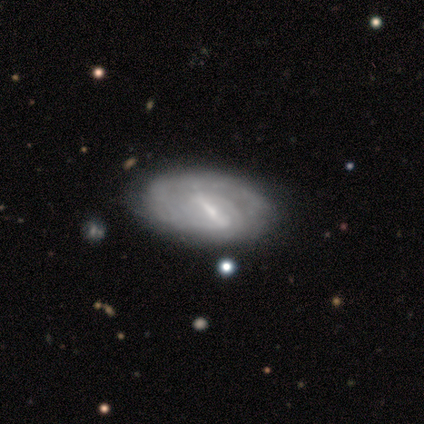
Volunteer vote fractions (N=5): A featured or disk galaxy (100%) with a strong bar (60%), tight (100%) spiral arms (80%) and a small central bulge (40%).

Vote fractions:
- Smooth or featured? featured or disk: 100% / smooth: 0% / star or artifact: 0%
- Edge-on disk? no: 100% / yes: 0%
- Bar? strong: 60% / weak: 40% / no: 0%
- Spiral arms? yes: 80% / no: 20%
- Spiral winding? tight: 100% / medium: 0% / loose: 0%
- Spiral arm count? can't tell: 75% / 3: 25% / 1: 0% / 2: 0% / 4: 0% / more than 4: 0%
- Bulge size? small: 40% / large: 20% / moderate: 20% / none: 20% / dominant: 0%
- Merging? none: 80% / minor disturbance: 20% / major disturbance: 0% / merger: 0%